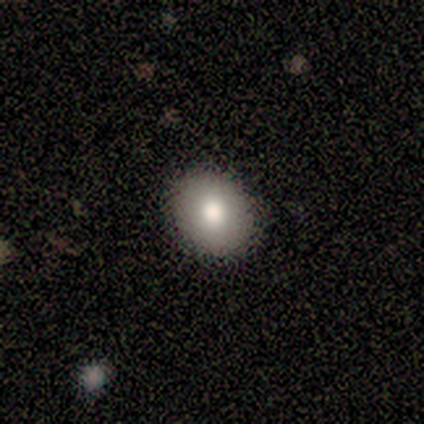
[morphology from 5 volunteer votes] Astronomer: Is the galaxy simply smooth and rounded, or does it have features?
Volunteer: smooth — 100%.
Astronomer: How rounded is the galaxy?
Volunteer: in between — 60% (runner-up: round, 40%).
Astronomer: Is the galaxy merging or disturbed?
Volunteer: none — 80%.